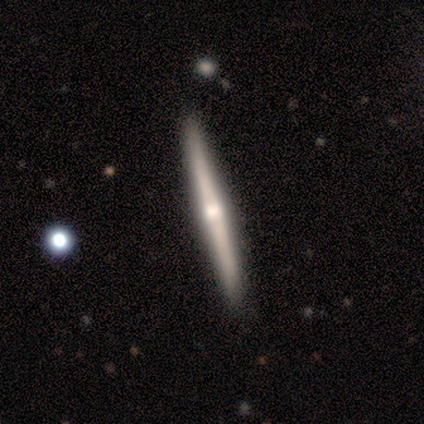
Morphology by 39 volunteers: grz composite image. It shows a featured or disk galaxy (82%) viewed edge-on (100%) with a rounded central bulge (75%). Merging: none (87%).